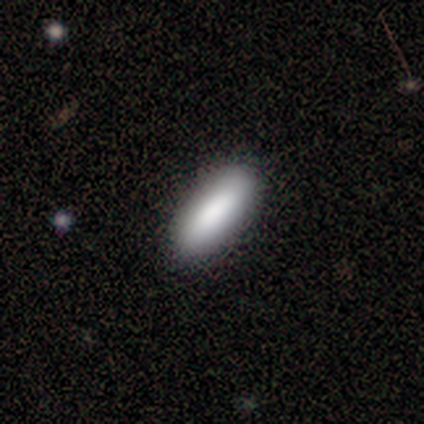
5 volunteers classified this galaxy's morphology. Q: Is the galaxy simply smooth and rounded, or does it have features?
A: smooth — 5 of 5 (100%).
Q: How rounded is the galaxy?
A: in between — 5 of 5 (100%).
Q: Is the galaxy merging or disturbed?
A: none — 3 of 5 (60%).